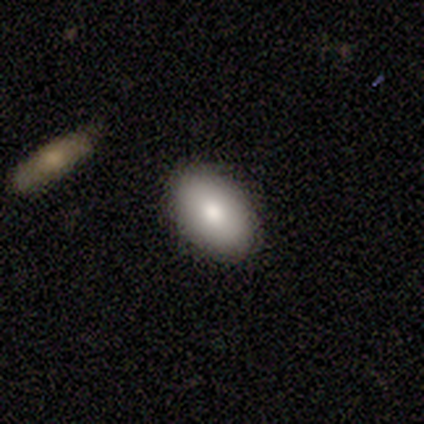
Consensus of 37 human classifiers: Smooth or featured?
  - smooth: 95% *
  - featured or disk: 5%
  - star or artifact: 0%
How rounded?
  - in between: 94% *
  - round: 6%
  - cigar-shaped: 0%
Merging?
  - none: 89% *
  - minor disturbance: 8%
  - merger: 3%
  - major disturbance: 0%